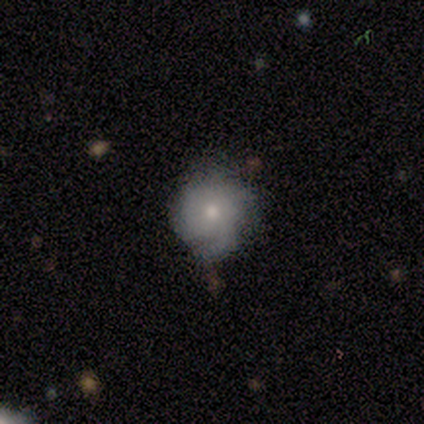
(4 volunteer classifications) A smooth galaxy with no disk features (100%) that is round (100%). Merging: none (100%).